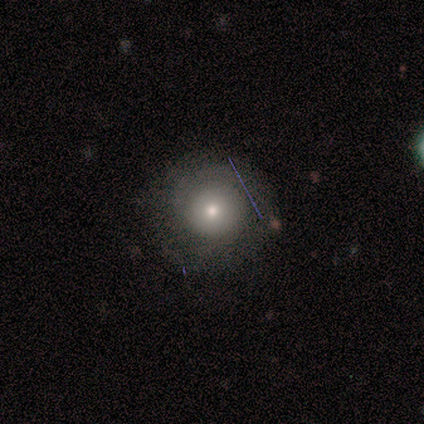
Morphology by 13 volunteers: This appears to be a smooth galaxy with no disk features (69%) that is round (89%). Merging: none (77%).